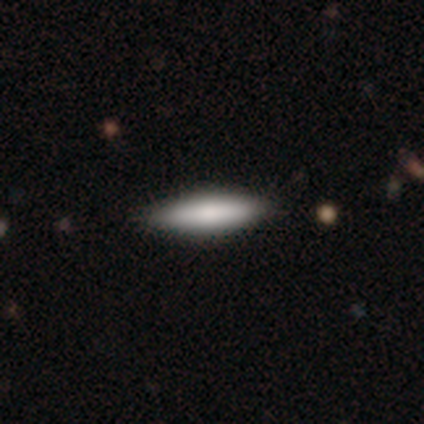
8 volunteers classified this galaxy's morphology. A smooth galaxy with no disk features (88%) that is cigar-shaped (86%). Merging: none (88%).